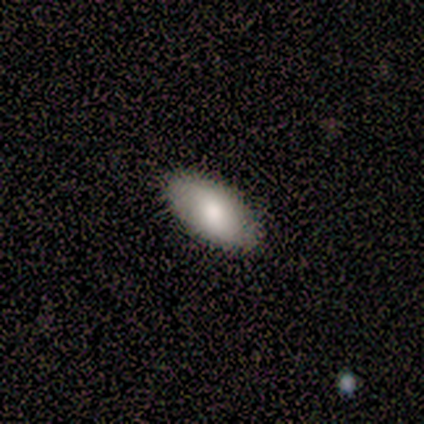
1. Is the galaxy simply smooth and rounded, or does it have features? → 100% smooth, 0% featured or disk, 0% star or artifact.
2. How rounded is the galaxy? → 80% in between, 20% cigar-shaped, 0% round.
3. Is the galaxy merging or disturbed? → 80% none, 20% minor disturbance, 0% major disturbance, 0% merger.